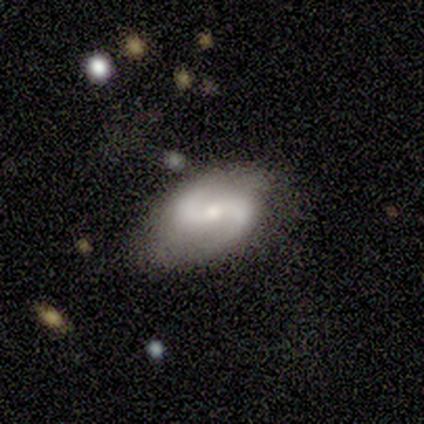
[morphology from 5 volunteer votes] Q: Smooth or featured?
A: featured or disk (80%); runner-up: star or artifact (20%)
Q: Edge-on disk?
A: no (100%)
Q: Bar?
A: strong (75%); runner-up: no (25%)
Q: Spiral arms?
A: yes (100%)
Q: Spiral winding?
A: loose (75%); runner-up: medium (25%)
Q: Spiral arm count?
A: 2 (100%)
Q: Bulge size?
A: moderate (75%); runner-up: small (25%)
Q: Merging?
A: none (75%); runner-up: minor disturbance (25%)